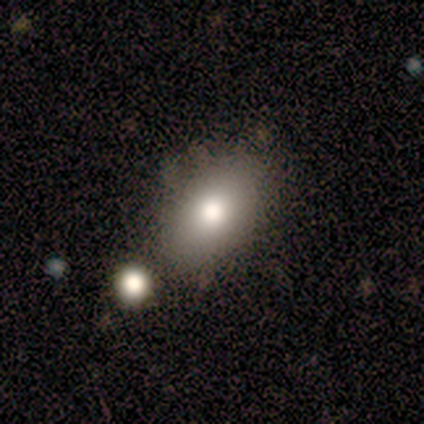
smooth-or-featured: smooth: 91% | featured or disk: 9% | star or artifact: 0%
  how-rounded: in between: 80% | round: 20% | cigar-shaped: 0%
  merging: none: 73% | minor disturbance: 18% | merger: 9% | major disturbance: 0%